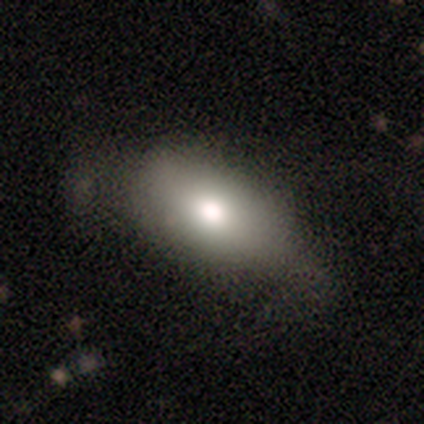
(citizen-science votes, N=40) smooth-or-featured: smooth: 80% | featured or disk: 18% | star or artifact: 2%
  how-rounded: in between: 94% | round: 6% | cigar-shaped: 0%
  merging: none: 33% | minor disturbance: 21% | major disturbance: 10% | merger: 5%